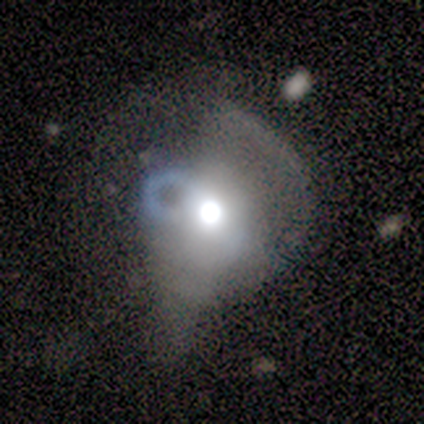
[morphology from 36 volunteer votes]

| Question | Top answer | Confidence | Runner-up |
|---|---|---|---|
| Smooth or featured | featured or disk | 44% | smooth (33%) |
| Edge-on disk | no | 100% | — |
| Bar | no | 100% | — |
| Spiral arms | no | 88% | yes (12%) |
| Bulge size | large | 56% | moderate (44%) |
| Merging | major disturbance | 46% | minor disturbance (32%) |